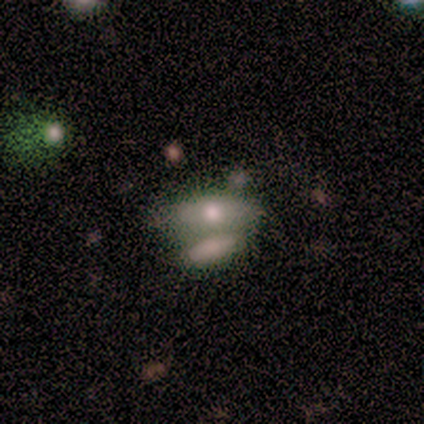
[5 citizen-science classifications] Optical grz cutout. It shows a smooth galaxy with no disk features (80%) that is in between round and cigar-shaped (100%). Merging: merger (80%).